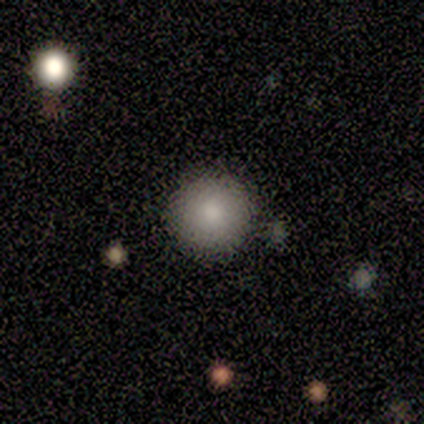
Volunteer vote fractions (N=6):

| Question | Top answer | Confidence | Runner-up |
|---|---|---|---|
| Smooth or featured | smooth | 67% | featured or disk (17%) |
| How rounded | round | 100% | — |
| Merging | none | 100% | — |